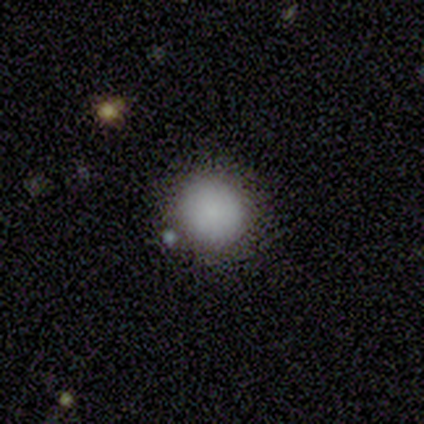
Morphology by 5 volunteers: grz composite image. It shows a smooth galaxy with no disk features (100%) that is round (100%). Merging: none (100%).